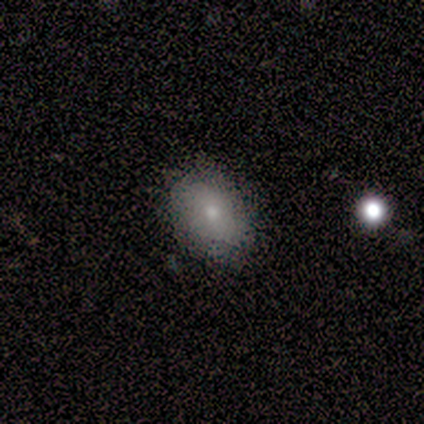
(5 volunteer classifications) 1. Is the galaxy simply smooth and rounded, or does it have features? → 80% smooth, 20% featured or disk, 0% star or artifact.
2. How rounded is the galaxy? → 75% in between, 25% round, 0% cigar-shaped.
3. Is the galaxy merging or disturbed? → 80% none, 20% minor disturbance, 0% major disturbance, 0% merger.